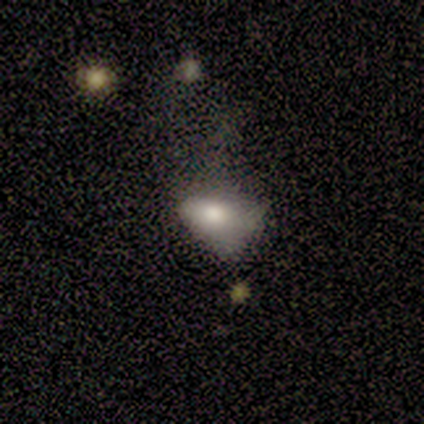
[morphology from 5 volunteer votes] Smooth or featured: smooth — 100%
How rounded: in between — 80% (cigar-shaped — 20%)
Merging: none — 60% (minor disturbance — 20%)